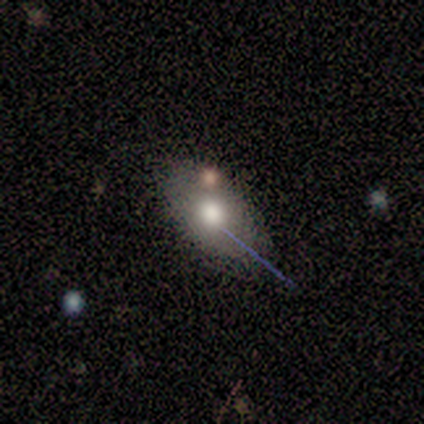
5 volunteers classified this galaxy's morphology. This is likely a smooth galaxy (60%). How rounded: likely in between (67%). Merging: likely none (60%).